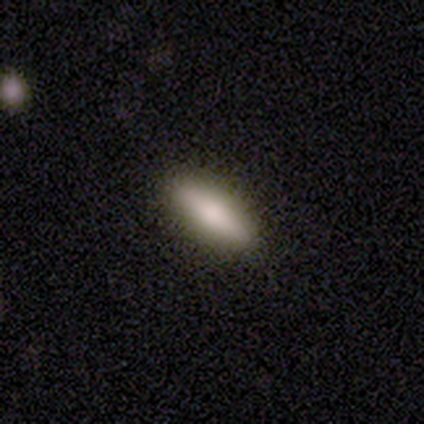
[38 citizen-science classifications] Smooth or featured? 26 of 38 (68%) said smooth. How rounded? 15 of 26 (58%) said cigar-shaped. Merging? 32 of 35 (91%) said none.